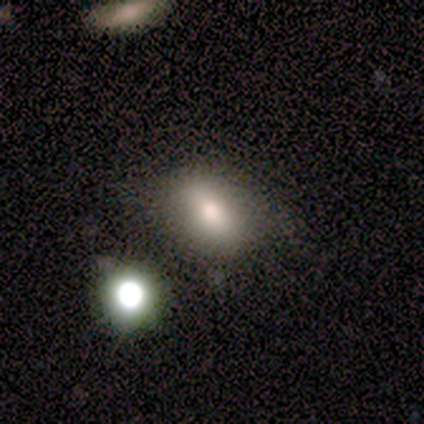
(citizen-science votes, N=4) smooth_or_featured: smooth (p=0.50) [tied with: star or artifact p=0.50]
how_rounded: in between (p=1.00)
merging: minor disturbance (p=0.50) [tied with: major disturbance p=0.50]